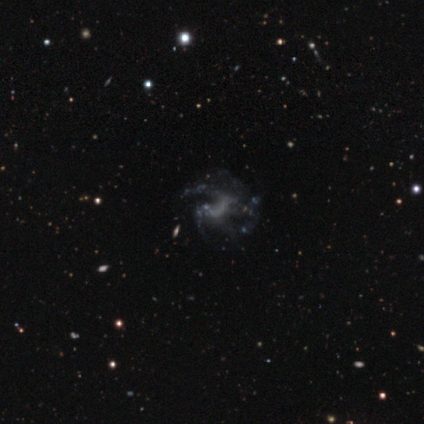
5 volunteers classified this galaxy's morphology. Smooth or featured: featured or disk — 100%
Edge-on disk: no — 100%
Bar: no — 100%
Spiral arms: no — 60% (yes — 40%)
Bulge size: none — 100%
Merging: major disturbance — 60% (none — 20%)